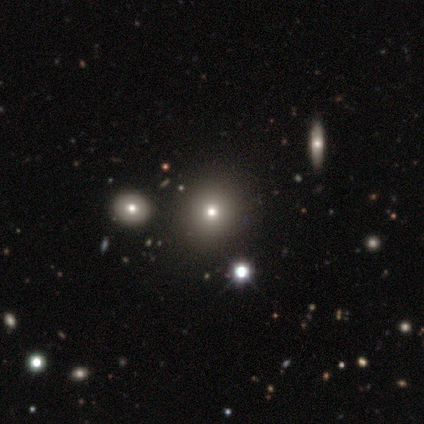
Smooth or featured? 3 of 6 (50%, tied with star or artifact) said smooth. How rounded? 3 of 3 (100%) said round. Merging? 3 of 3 (100%) said none.